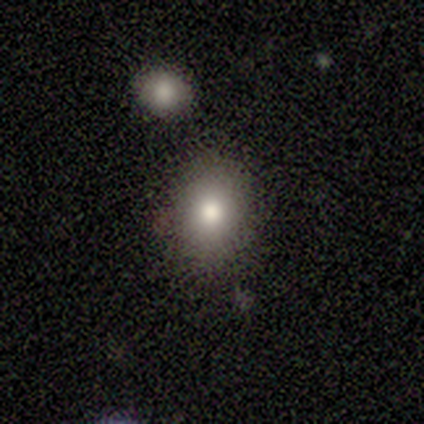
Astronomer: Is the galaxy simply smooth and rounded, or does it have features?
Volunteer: smooth — 40%, tied with star or artifact at 40%.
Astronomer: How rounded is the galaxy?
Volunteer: round — 50%, tied with in between at 50%.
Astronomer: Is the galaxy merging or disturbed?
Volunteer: none — 100%.